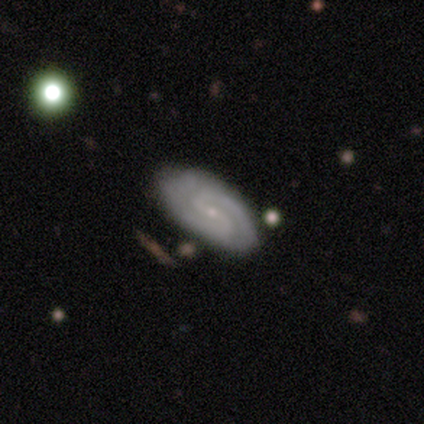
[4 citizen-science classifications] A featured or disk galaxy (100%) with a weak bar (75%), 2 (67%) tight (33%, tied with medium and loose) spiral arms (75%) and a small central bulge (75%). Merging: none (100%).